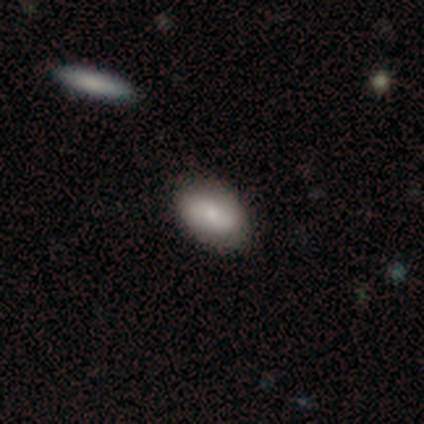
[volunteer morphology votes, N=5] type=smooth (80%); roundness=in between (75%); merging=none (60%).